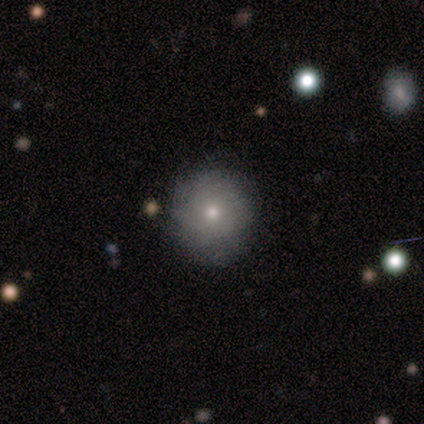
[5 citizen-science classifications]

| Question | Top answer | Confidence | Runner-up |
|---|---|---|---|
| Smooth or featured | smooth | 60% | featured or disk (40%) |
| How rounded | round | 67% | in between (33%) |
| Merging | none | 100% | — |